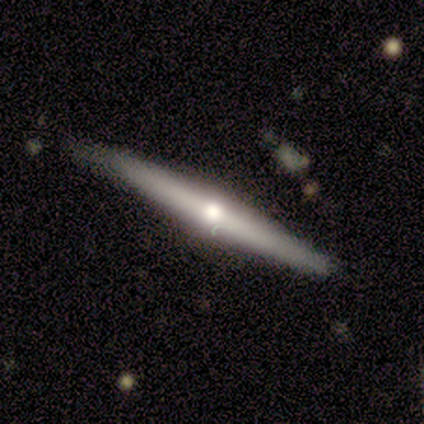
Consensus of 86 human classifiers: smooth_or_featured: featured or disk (p=0.69) [alt: smooth p=0.24]
disk_edge_on: yes (p=0.97) [alt: no p=0.03]
edge_on_bulge: rounded (p=0.86) [alt: none p=0.09]
merging: none (p=0.81) [alt: minor disturbance p=0.19]